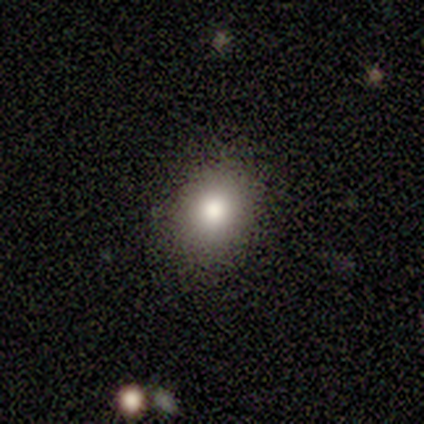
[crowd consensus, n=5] This appears to be a smooth galaxy with no disk features (100%) that is round (100%). Merging: none (60%).